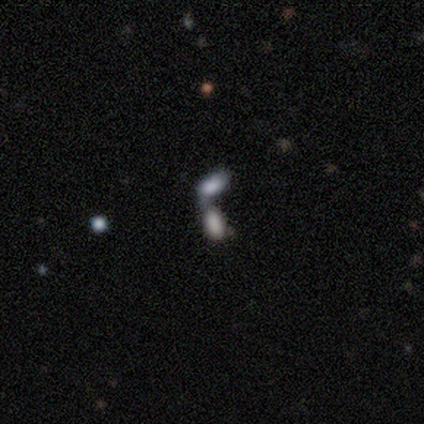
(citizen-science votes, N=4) Smooth or featured?
  - smooth: 75% *
  - featured or disk: 25%
  - star or artifact: 0%
How rounded?
  - in between: 67% *
  - cigar-shaped: 33%
  - round: 0%
Merging?
  - merger: 100% *
  - none: 0%
  - minor disturbance: 0%
  - major disturbance: 0%